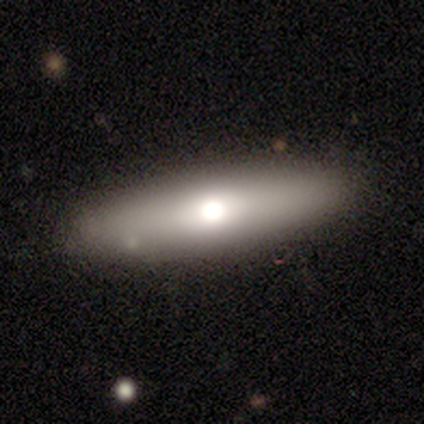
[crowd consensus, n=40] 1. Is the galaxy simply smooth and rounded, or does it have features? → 65% smooth, 35% featured or disk, 0% star or artifact.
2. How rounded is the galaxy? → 73% cigar-shaped, 27% in between, 0% round.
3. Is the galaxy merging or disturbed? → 72% none, 2% minor disturbance, 0% major disturbance, 0% merger.